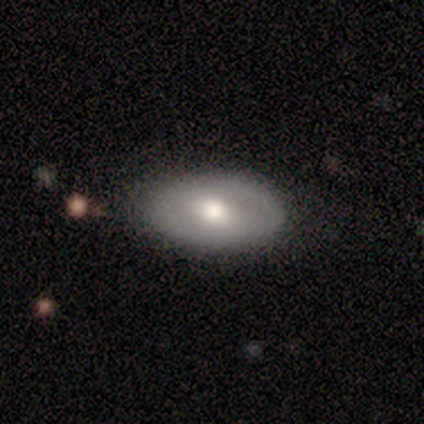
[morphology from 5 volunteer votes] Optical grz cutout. It shows a featured or disk galaxy (80%) with a weak bar (75%), no spiral arms (75%) and a moderate central bulge (75%). Merging: none (80%).